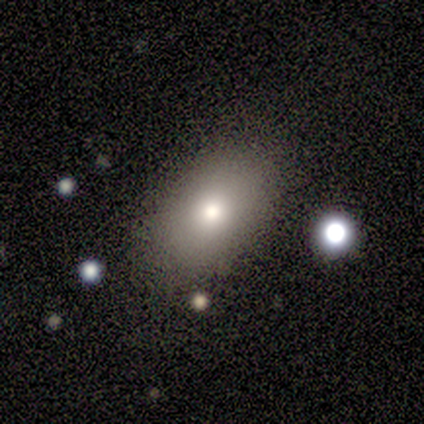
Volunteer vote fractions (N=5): smooth-or-featured: smooth: 60% | featured or disk: 20% | star or artifact: 20%
  how-rounded: in between: 100% | round: 0% | cigar-shaped: 0%
  merging: none: 100% | minor disturbance: 0% | major disturbance: 0% | merger: 0%